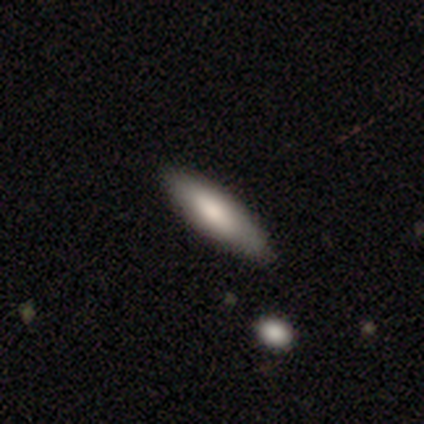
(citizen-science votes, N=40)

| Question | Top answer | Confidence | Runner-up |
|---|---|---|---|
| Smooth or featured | smooth | 80% | featured or disk (18%) |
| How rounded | cigar-shaped | 69% | in between (31%) |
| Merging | none | 79% | minor disturbance (15%) |